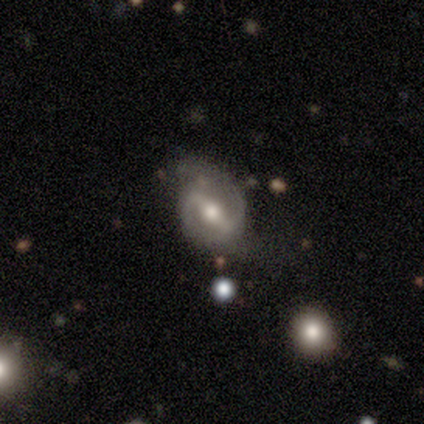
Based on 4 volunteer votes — Morphology: type=featured or disk (100%); edge-on=no (100%); bar=strong (75%); spiral arms=yes (100%); winding=medium (100%); arm count=2 (100%); bulge=moderate (100%); merging=none (50%, tied with minor disturbance).